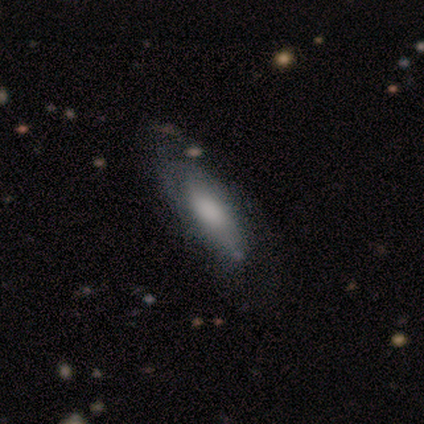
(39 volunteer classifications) A smooth galaxy with no disk features (54%) that is in between round and cigar-shaped (67%). Merging: none (44%).